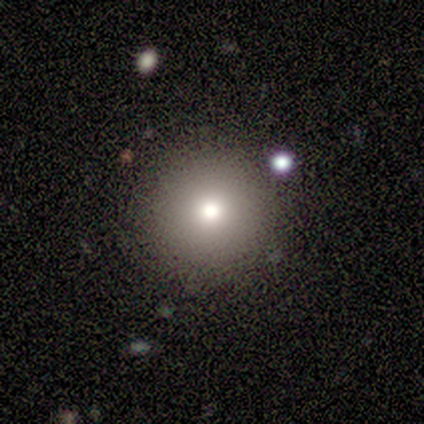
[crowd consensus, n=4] A smooth galaxy with no disk features (100%) that is round (100%).

Vote fractions:
- Smooth or featured? smooth: 100% / featured or disk: 0% / star or artifact: 0%
- How rounded? round: 100% / in between: 0% / cigar-shaped: 0%
- Merging? none: 100% / minor disturbance: 0% / major disturbance: 0% / merger: 0%